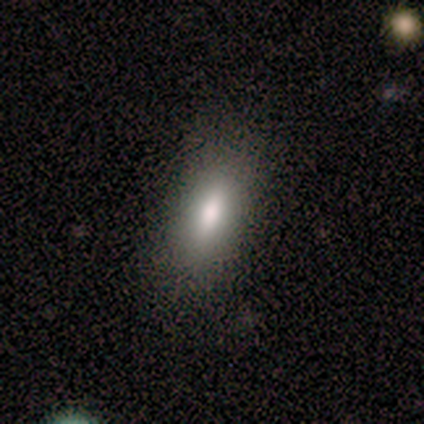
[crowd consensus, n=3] Smooth or featured: smooth — 100%
How rounded: in between — 100%
Merging: none — 67% (minor disturbance — 33%)